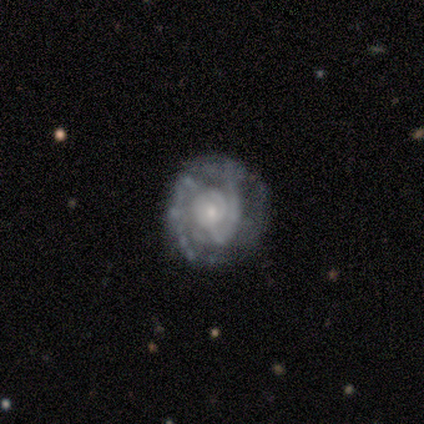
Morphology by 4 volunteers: featured or disk 50%, smooth 25%, star or artifact 25%. Down the decision tree: edge-on disk — no (100%); bar — no (100%); spiral arms — yes (100%); spiral arm count — 2 (100%); spiral winding — tight (50%, tied with medium); bulge size — small (100%); merging — none (67%).